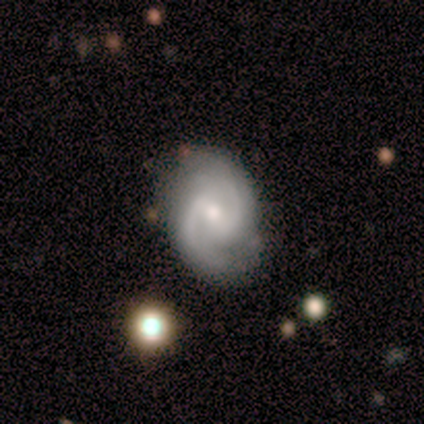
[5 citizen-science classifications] Smooth or featured: featured or disk — 100%
Edge-on disk: no — 100%
Bar: weak — 80% (no — 20%)
Spiral arms: yes — 100%
Spiral winding: tight — 60% (medium — 40%)
Spiral arm count: 2 — 100%
Bulge size: small — 60% (moderate — 40%)
Merging: none — 80% (minor disturbance — 20%)